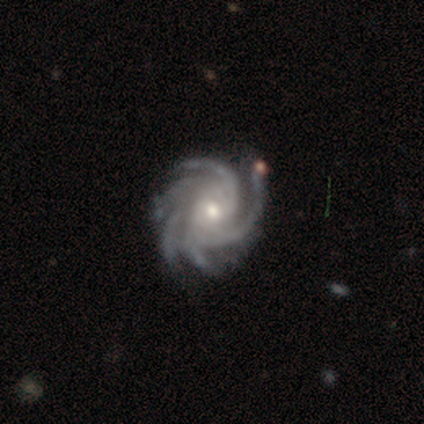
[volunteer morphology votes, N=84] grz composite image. It shows a featured or disk galaxy (96%) with no bar (74%), more than 4 (89%) tight (74%) spiral arms (100%) and a small central bulge (50%). Merging: none (78%).